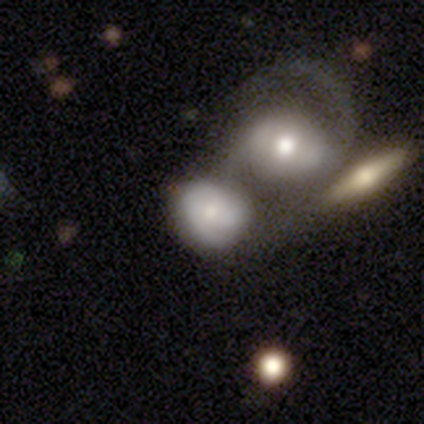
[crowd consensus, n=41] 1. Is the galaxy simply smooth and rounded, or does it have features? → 49% smooth, 46% featured or disk, 5% star or artifact.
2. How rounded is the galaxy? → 65% round, 35% in between, 0% cigar-shaped.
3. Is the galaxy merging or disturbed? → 56% merger, 26% none, 15% minor disturbance, 3% major disturbance.